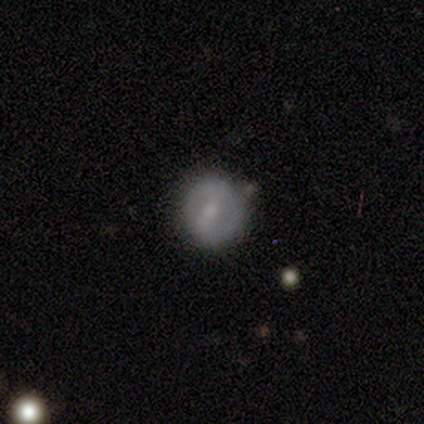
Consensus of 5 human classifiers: smooth-or-featured: featured or disk: 80% | smooth: 20% | star or artifact: 0%
  disk-edge-on: no: 100% | yes: 0%
    bar: strong: 75% | weak: 25% | no: 0%
    has-spiral-arms: yes: 50% (tied) | no: 50% (tied)
      spiral-winding: medium: 50% (tied) | loose: 50% (tied) | tight: 0%
      spiral-arm-count: 2: 100% | 1: 0% | 3: 0% | 4: 0% | more than 4: 0% | can't tell: 0%
    bulge-size: moderate: 50% (tied) | small: 50% (tied) | dominant: 0% | large: 0% | none: 0%
  merging: none: 100% | minor disturbance: 0% | major disturbance: 0% | merger: 0%